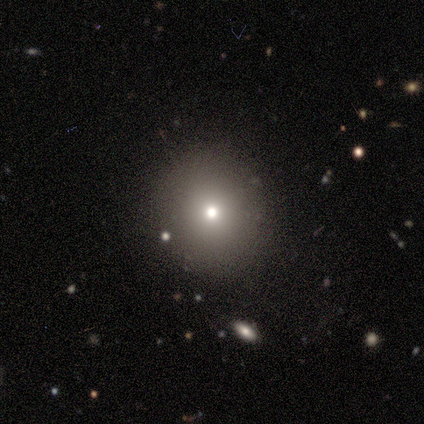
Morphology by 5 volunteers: Overall: smooth (80%). How rounded: round (100%). Merging: none (100%).